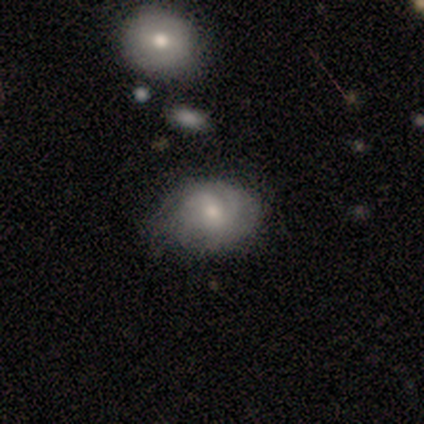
A smooth galaxy with no disk features (80%) that is round (50%, tied with in between).

Vote fractions:
- Smooth or featured? smooth: 80% / featured or disk: 20% / star or artifact: 0%
- How rounded? round: 50% (tied) / in between: 50% (tied) / cigar-shaped: 0%
- Merging? none: 80% / minor disturbance: 20% / major disturbance: 0% / merger: 0%